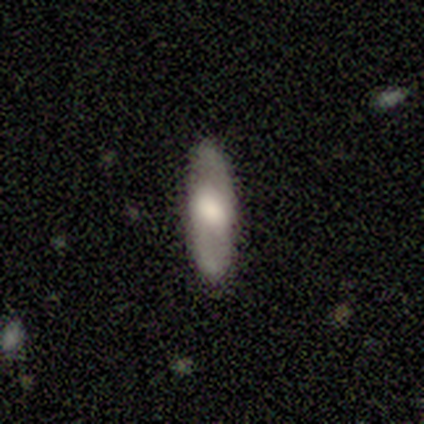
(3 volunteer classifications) Smooth or featured? 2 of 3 (67%) said smooth. How rounded? 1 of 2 (50%, tied with cigar-shaped) said in between. Merging? 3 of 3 (100%) said none.